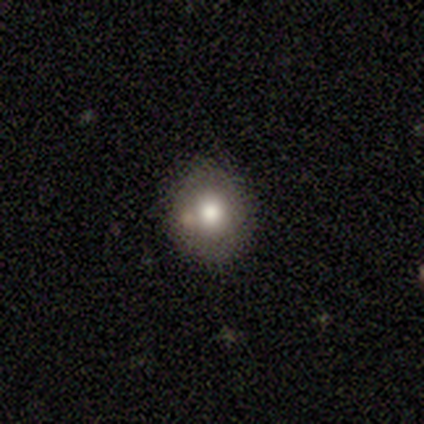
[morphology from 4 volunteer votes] Smooth or featured?
  - smooth: 100% *
  - featured or disk: 0%
  - star or artifact: 0%
How rounded?
  - round: 50% * (tied)
  - in between: 50% * (tied)
  - cigar-shaped: 0%
Merging?
  - minor disturbance: 75% *
  - none: 25%
  - major disturbance: 0%
  - merger: 0%